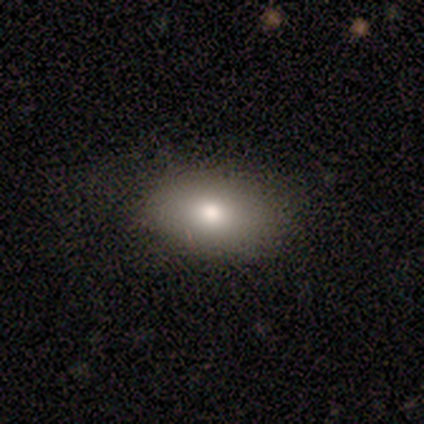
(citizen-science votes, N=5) Morphology: type=smooth (100%); roundness=in between (80%); merging=none (100%).